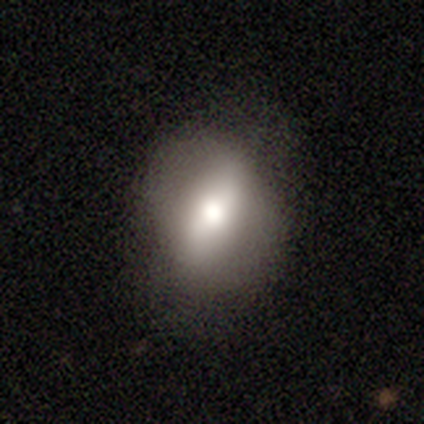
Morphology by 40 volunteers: type=smooth (52%); roundness=in between (86%); merging=none (57%).